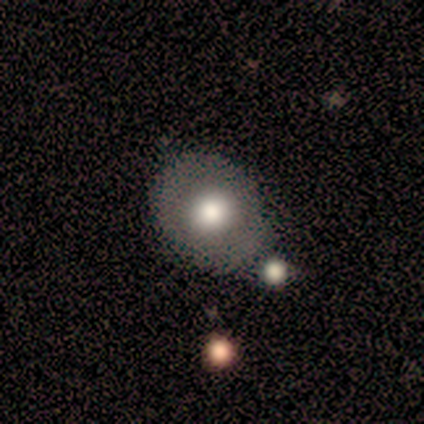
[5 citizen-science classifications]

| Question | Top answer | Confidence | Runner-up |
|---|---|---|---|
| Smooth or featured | smooth | 80% | star or artifact (20%) |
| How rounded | round | 75% | in between (25%) |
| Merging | none | 100% | — |